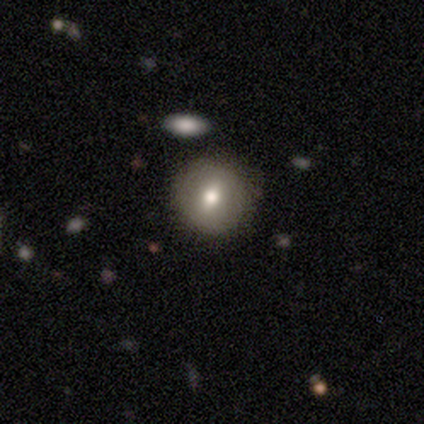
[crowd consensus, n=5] A smooth galaxy with no disk features (80%) that is round (100%).

Vote fractions:
- Smooth or featured? smooth: 80% / featured or disk: 20% / star or artifact: 0%
- How rounded? round: 100% / in between: 0% / cigar-shaped: 0%
- Merging? none: 80% / minor disturbance: 20% / major disturbance: 0% / merger: 0%